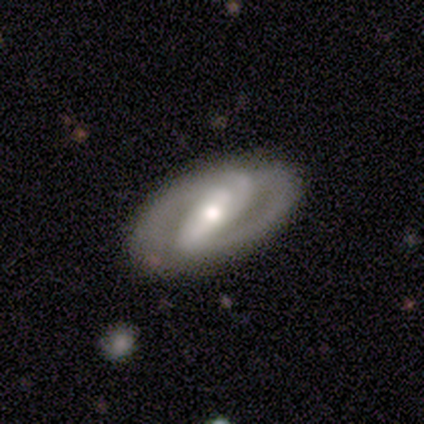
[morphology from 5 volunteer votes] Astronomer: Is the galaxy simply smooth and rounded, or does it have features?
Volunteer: featured or disk — 80%.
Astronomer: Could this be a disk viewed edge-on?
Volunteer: no — 100%.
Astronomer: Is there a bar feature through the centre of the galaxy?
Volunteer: weak — 50%.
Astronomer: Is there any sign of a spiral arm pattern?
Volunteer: yes — 75%.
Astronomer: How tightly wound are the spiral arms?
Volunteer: medium — 100%.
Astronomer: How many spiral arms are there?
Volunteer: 2 — 67%.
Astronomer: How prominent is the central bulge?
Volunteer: moderate — 75%.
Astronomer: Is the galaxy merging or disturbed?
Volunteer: none — 100%.